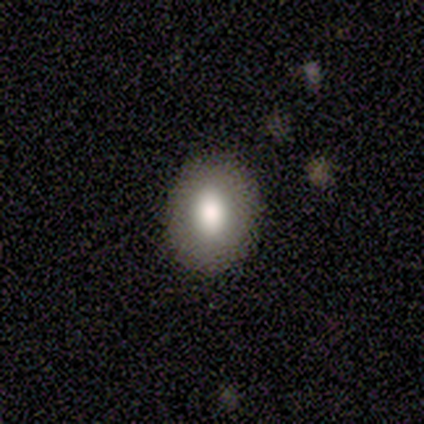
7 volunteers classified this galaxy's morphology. smooth_or_featured: smooth (p=0.86) [alt: featured or disk p=0.14]
how_rounded: round (p=0.50) [tied with: in between p=0.50]
merging: none (p=1.00)